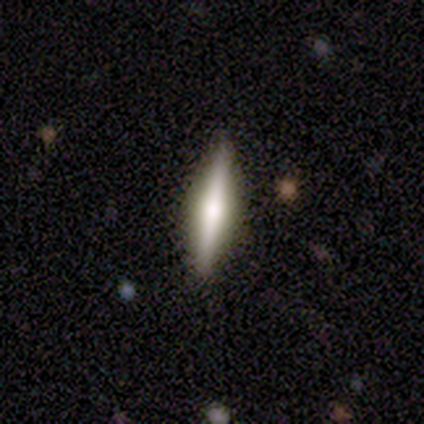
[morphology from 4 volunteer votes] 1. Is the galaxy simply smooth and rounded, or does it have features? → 75% featured or disk, 25% smooth, 0% star or artifact.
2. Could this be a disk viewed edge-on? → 67% yes, 33% no.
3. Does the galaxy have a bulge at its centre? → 50% none (tied), 50% rounded (tied), 0% boxy.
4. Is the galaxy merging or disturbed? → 100% none, 0% minor disturbance, 0% major disturbance, 0% merger.